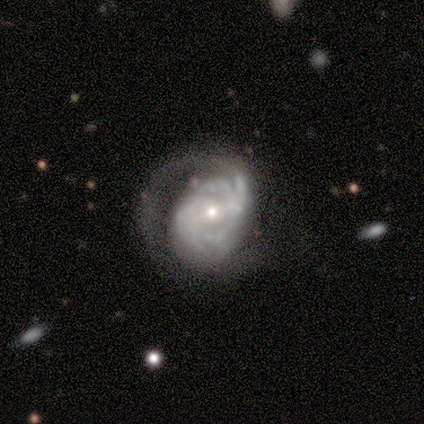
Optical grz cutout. It shows a featured or disk galaxy (60%) with a weak bar (67%), more than 4 (50%, tied with can't tell) tight (100%) spiral arms (67%) and a small central bulge (67%). Merging: major disturbance (80%).